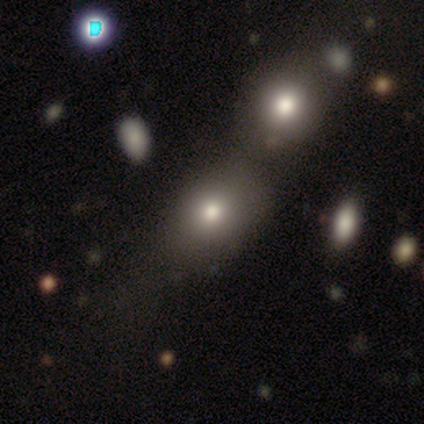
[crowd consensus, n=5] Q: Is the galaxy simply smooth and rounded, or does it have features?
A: smooth — 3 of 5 (60%).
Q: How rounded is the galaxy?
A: in between — 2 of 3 (67%).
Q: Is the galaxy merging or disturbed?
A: none — 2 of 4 (50%, tied with merger).